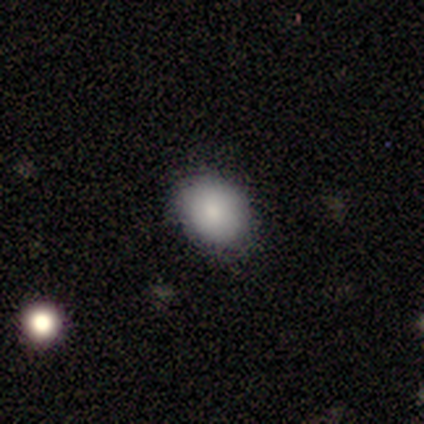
smooth 100%, featured or disk 0%, star or artifact 0%. Down the decision tree: how rounded — round (75%); merging — none (100%).